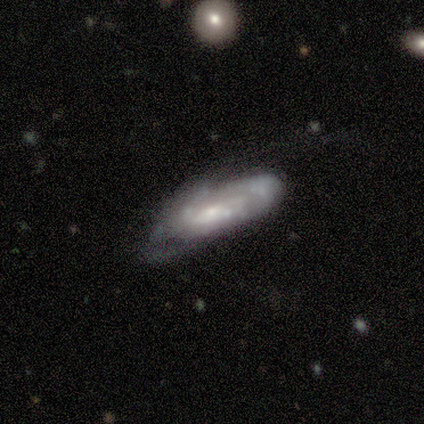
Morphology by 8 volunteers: A featured or disk galaxy (100%) with no bar (62%), tight (60%) spiral arms (62%) and a moderate central bulge (62%). Merging: major disturbance (62%).